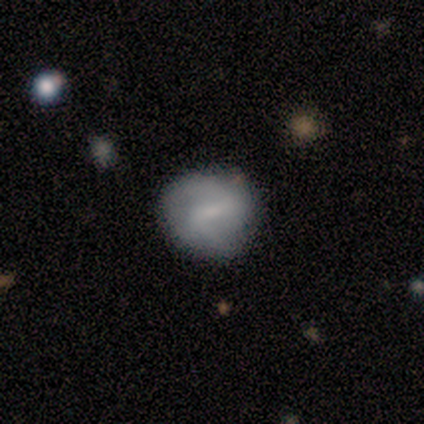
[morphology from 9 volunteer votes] Overall: smooth (56%; featured or disk 44%). How rounded: round (100%). Merging: none (56%; minor disturbance 44%).